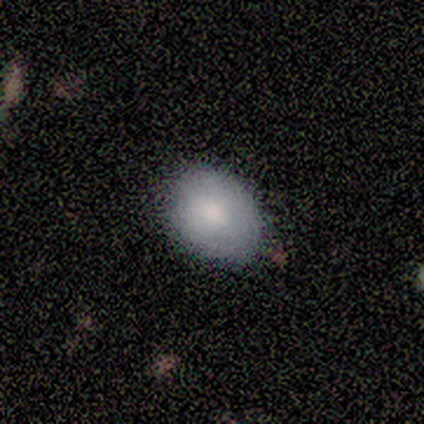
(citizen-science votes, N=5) smooth_or_featured: smooth (p=0.80) [alt: featured or disk p=0.20]
how_rounded: in between (p=0.75) [alt: round p=0.25]
merging: none (p=0.60) [alt: minor disturbance p=0.40]